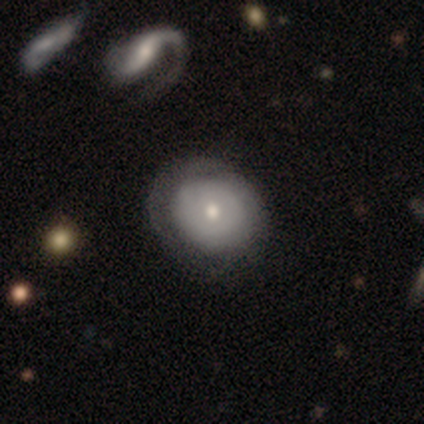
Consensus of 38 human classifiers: Smooth or featured?
  - featured or disk: 58% *
  - smooth: 42%
  - star or artifact: 0%
Edge-on disk?
  - no: 91% *
  - yes: 9%
Bar?
  - no: 90% *
  - weak: 10%
  - strong: 0%
Spiral arms?
  - no: 65% *
  - yes: 35%
Bulge size?
  - moderate: 50% *
  - small: 40%
  - dominant: 5%
  - large: 5%
  - none: 0%
Merging?
  - none: 58% *
  - minor disturbance: 21%
  - major disturbance: 8%
  - merger: 0%